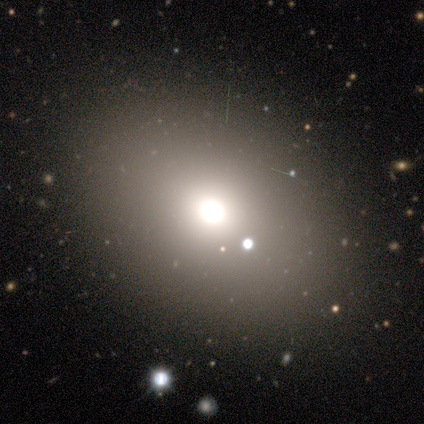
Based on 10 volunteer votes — A smooth galaxy with no disk features (90%) that is in between round and cigar-shaped (67%). Merging: none (100%).